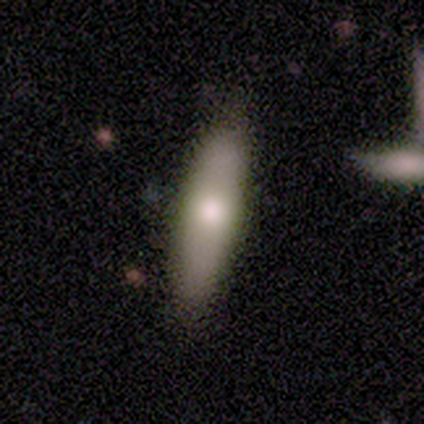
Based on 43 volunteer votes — Smooth or featured: smooth — 58% (featured or disk — 33%)
How rounded: cigar-shaped — 76% (in between — 16%)
Merging: none — 95% (minor disturbance — 5%)